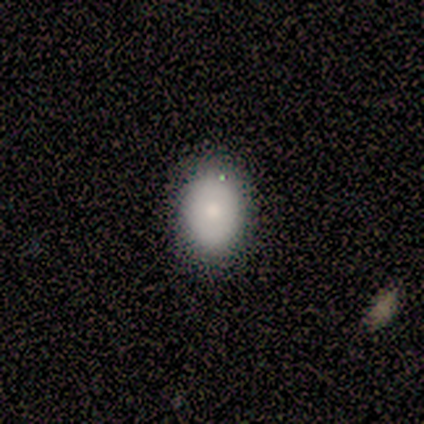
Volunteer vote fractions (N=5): This appears to be a smooth galaxy with no disk features (100%) that is round (80%). Merging: none (80%).